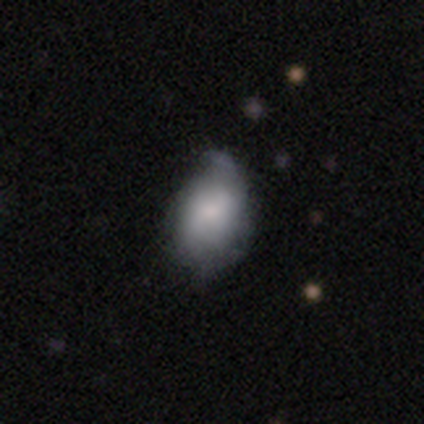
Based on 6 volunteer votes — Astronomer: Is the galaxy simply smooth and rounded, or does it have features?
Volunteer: smooth — 67%.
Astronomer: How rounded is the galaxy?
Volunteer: in between — 100%.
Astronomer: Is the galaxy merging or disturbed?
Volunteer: minor disturbance — 50% (runner-up: none, 33%).